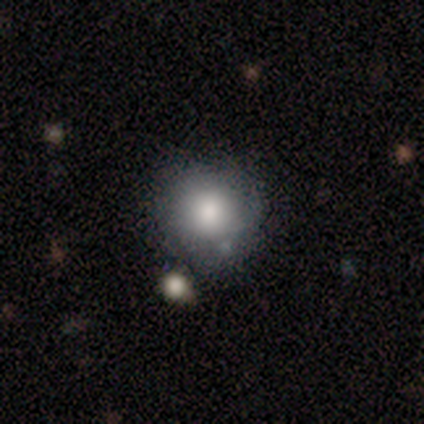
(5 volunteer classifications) smooth 80%, star or artifact 20%, featured or disk 0%. Down the decision tree: how rounded — round (75%); merging — minor disturbance (50%).